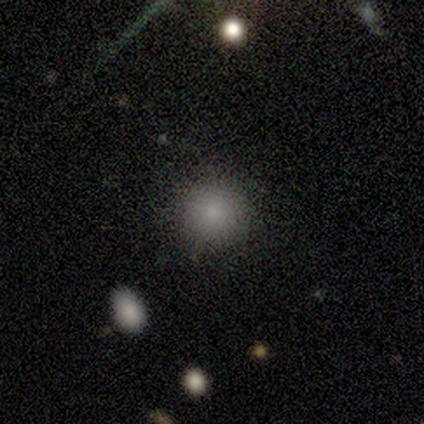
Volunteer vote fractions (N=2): This appears to be a smooth galaxy with no disk features (100%) that is round (100%). Merging: none (100%).